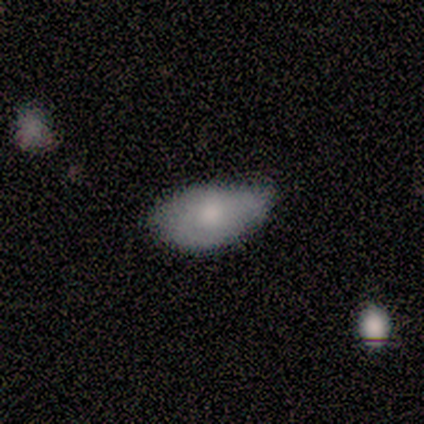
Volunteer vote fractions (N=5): Smooth or featured? smooth (60%)
How rounded? in between (67%)
Merging? none (80%)